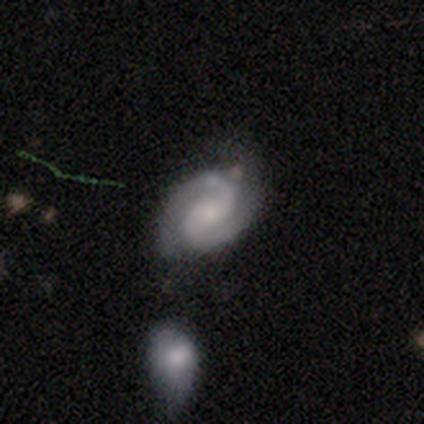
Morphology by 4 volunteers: type=featured or disk (100%); edge-on=no (75%); bar=no (67%); spiral arms=yes (100%); winding=tight (67%); arm count=2 (100%); bulge=small (100%); merging=none (75%).